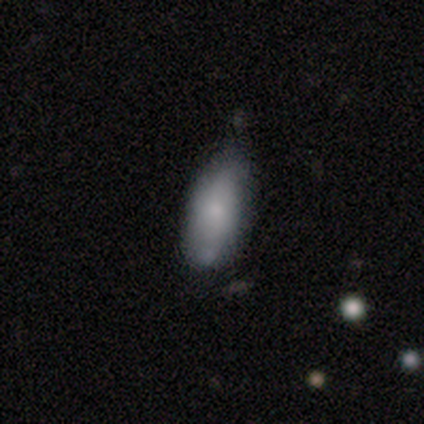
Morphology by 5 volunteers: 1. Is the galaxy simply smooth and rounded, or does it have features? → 100% smooth, 0% featured or disk, 0% star or artifact.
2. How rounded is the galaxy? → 100% in between, 0% round, 0% cigar-shaped.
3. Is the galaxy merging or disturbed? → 60% none, 40% minor disturbance, 0% major disturbance, 0% merger.